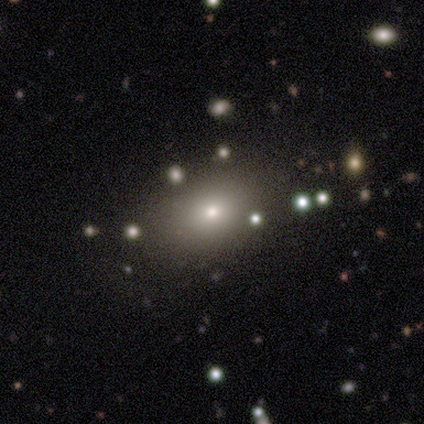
Overall: smooth (80%). How rounded: round (50%, tied with in between). Merging: none (100%).